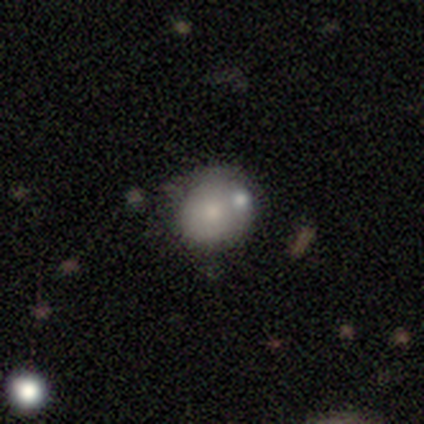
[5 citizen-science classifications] Q: Smooth or featured?
A: smooth (60%); runner-up: featured or disk (20%)
Q: How rounded?
A: in between (67%); runner-up: round (33%)
Q: Merging?
A: none (50%); runner-up: minor disturbance (25%)